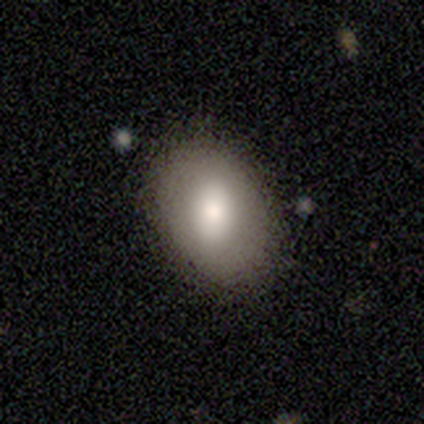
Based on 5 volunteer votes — A smooth galaxy with no disk features (60%) that is in between round and cigar-shaped (67%). Merging: none (75%).